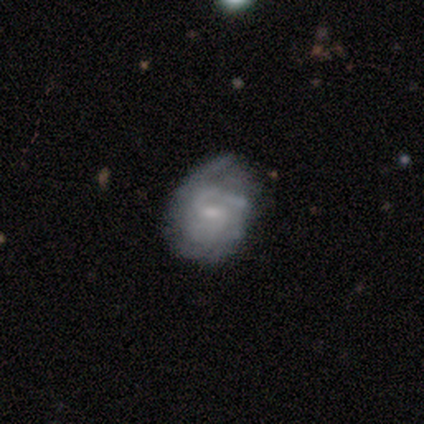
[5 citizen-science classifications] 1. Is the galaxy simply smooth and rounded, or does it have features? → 80% featured or disk, 20% smooth, 0% star or artifact.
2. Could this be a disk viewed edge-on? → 100% no, 0% yes.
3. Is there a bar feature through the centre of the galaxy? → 75% weak, 25% strong, 0% no.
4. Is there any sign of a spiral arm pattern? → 50% yes (tied), 50% no (tied).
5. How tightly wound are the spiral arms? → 100% tight, 0% medium, 0% loose.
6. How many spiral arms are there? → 50% 1 (tied), 50% can't tell (tied), 0% 2, 0% 3, 0% 4, 0% more than 4.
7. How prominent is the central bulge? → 50% moderate (tied), 50% small (tied), 0% dominant, 0% large, 0% none.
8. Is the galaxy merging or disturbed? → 40% none (tied), 40% major disturbance (tied), 20% minor disturbance, 0% merger.